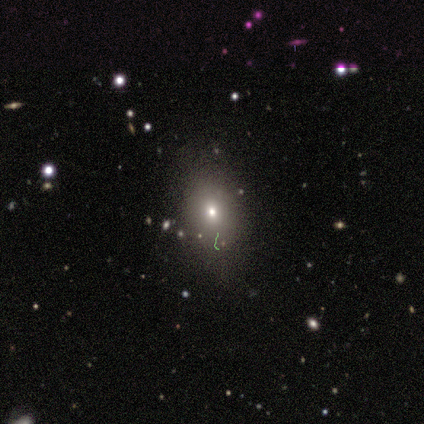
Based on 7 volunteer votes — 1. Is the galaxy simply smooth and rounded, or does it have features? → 86% smooth, 14% star or artifact, 0% featured or disk.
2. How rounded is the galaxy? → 100% in between, 0% round, 0% cigar-shaped.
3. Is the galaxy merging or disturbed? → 67% none, 33% minor disturbance, 0% major disturbance, 0% merger.